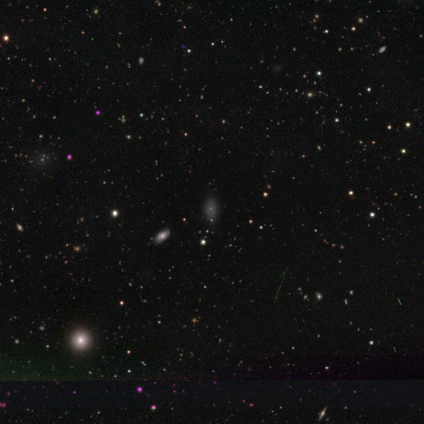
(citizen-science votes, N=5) Smooth or featured? 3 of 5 (60%) said smooth. How rounded? 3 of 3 (100%) said in between. Merging? 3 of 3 (100%) said none.